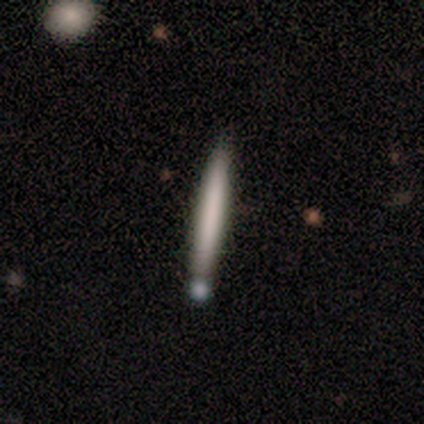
Overall: smooth (60%; featured or disk 40%). How rounded: cigar-shaped (100%). Merging: none (60%; merger 40%).